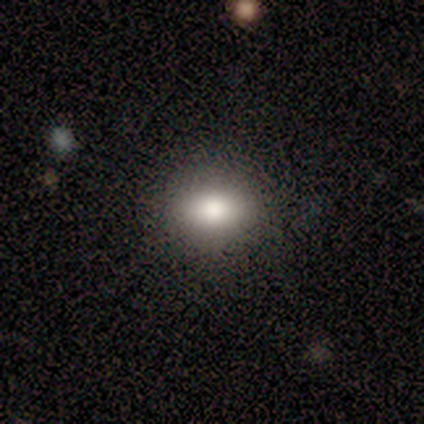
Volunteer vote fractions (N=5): A smooth galaxy with no disk features (100%) that is in between round and cigar-shaped (100%). Merging: none (100%).